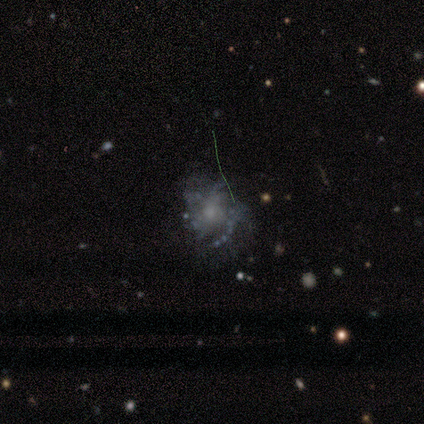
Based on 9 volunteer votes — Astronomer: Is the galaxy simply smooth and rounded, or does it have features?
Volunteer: featured or disk — 56% (runner-up: smooth, 44%).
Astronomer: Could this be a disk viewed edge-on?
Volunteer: no — 80%.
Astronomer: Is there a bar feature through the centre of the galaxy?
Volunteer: no — 100%.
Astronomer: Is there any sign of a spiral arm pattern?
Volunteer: yes — 100%.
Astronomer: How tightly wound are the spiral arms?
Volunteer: loose — 50%.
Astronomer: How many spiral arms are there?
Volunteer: can't tell — 50%.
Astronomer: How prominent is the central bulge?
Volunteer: moderate — 75%.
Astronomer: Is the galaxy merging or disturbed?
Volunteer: major disturbance — 33% (runner-up: none, 22%).